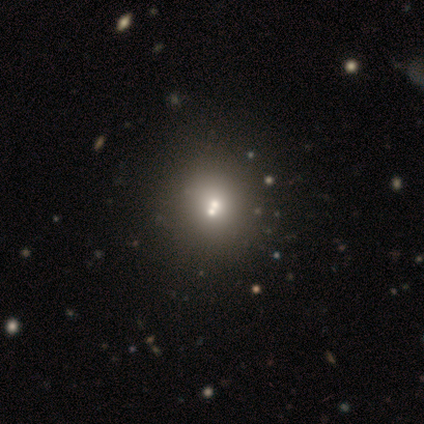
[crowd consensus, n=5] Overall: smooth (60%; featured or disk 40%). How rounded: round (67%; in between 33%). Merging: none (60%; minor disturbance 20%).